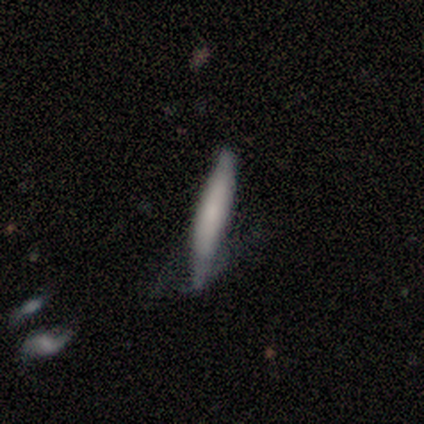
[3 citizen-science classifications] This appears to be a smooth galaxy with no disk features (67%) that is cigar-shaped (100%). Merging: none (33%, tied with minor disturbance and merger).